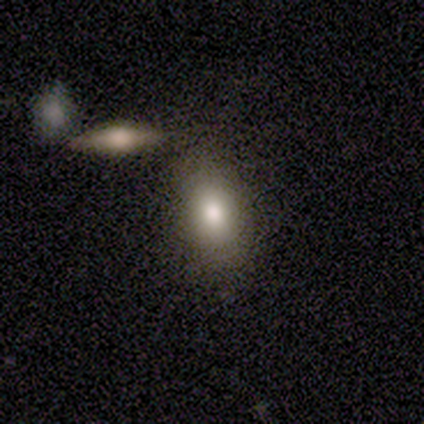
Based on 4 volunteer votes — Overall: smooth (75%). How rounded: in between (100%). Merging: merger (50%; none 25%).